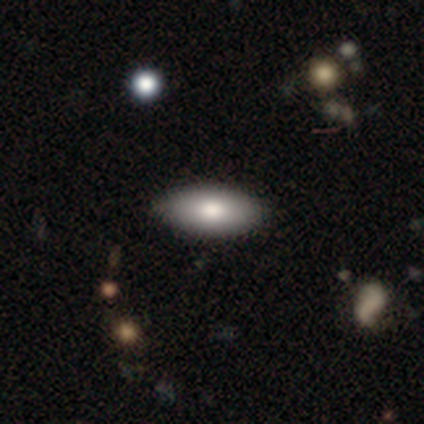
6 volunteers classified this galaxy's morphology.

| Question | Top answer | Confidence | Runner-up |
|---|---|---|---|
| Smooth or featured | smooth | 83% | featured or disk (17%) |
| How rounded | in between | 100% | — |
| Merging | none | 100% | — |